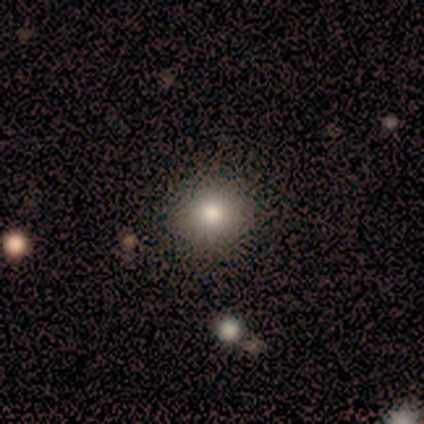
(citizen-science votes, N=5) Q: Smooth or featured?
A: smooth (100%)
Q: How rounded?
A: round (100%)
Q: Merging?
A: none (100%)